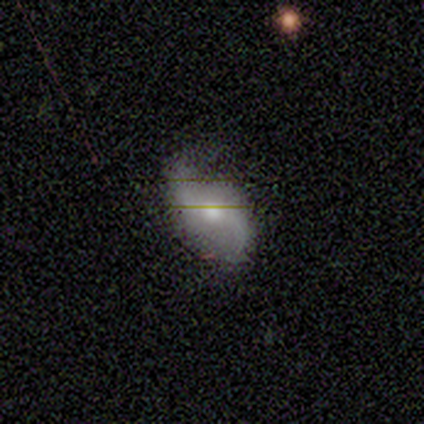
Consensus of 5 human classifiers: A featured or disk galaxy (80%) with a weak bar (67%), 2 (100%) loose (100%) spiral arms (100%) and a moderate central bulge (100%). Merging: none (100%).